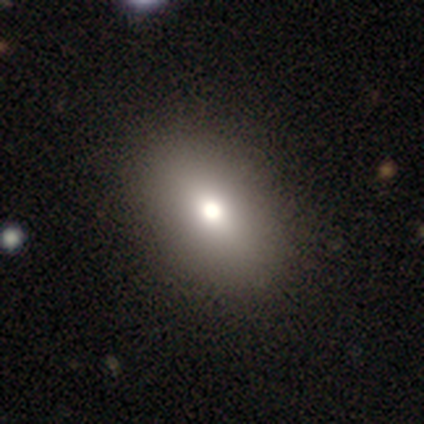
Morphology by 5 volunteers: A smooth galaxy with no disk features (80%) that is in between round and cigar-shaped (100%).

Vote fractions:
- Smooth or featured? smooth: 80% / featured or disk: 20% / star or artifact: 0%
- How rounded? in between: 100% / round: 0% / cigar-shaped: 0%
- Merging? none: 100% / minor disturbance: 0% / major disturbance: 0% / merger: 0%